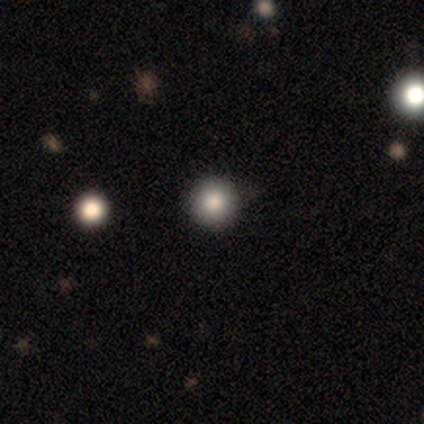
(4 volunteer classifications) Volunteers were most divided on "merging": none: 67%, minor disturbance: 33%, major disturbance: 0%, merger: 0%. More confident: how rounded — round (100%); smooth or featured — smooth (75%).